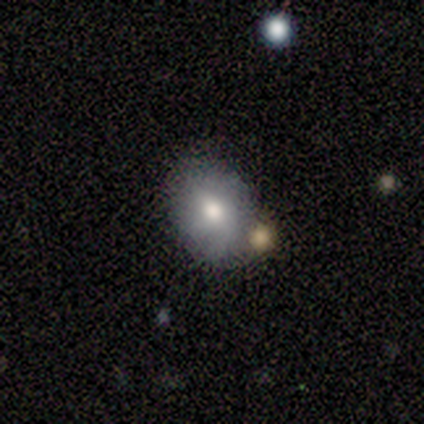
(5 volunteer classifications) smooth 100%, featured or disk 0%, star or artifact 0%. Down the decision tree: how rounded — in between (100%); merging — none (60%).